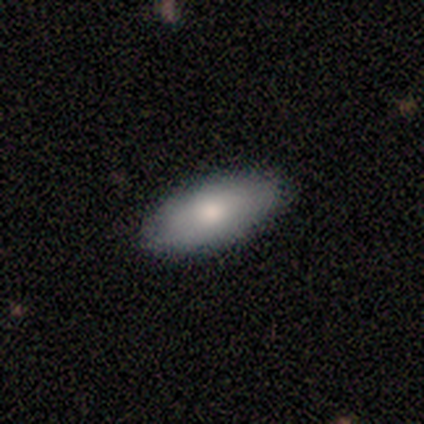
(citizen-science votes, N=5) smooth 80%, star or artifact 20%, featured or disk 0%. Down the decision tree: how rounded — in between (50%); merging — none (100%).